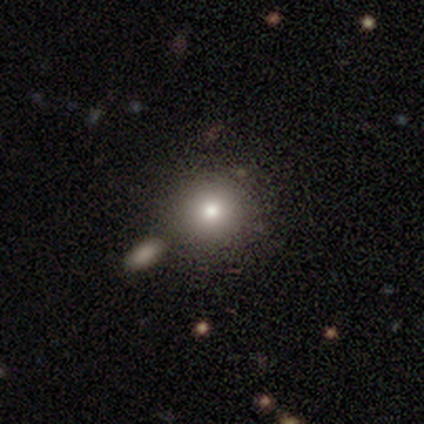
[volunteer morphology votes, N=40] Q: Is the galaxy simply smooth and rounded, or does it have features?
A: smooth — 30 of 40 (75%).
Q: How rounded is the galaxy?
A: round — 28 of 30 (93%).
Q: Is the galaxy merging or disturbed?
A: none — 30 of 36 (83%).